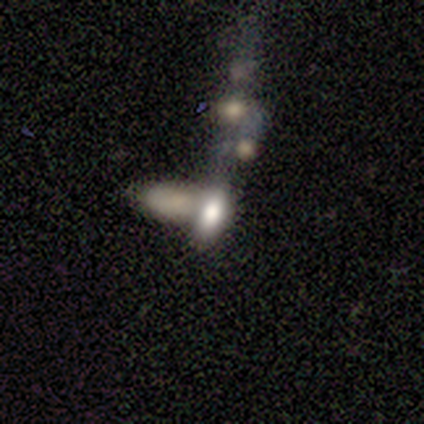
Volunteers were most divided on "smooth or featured": star or artifact: 60%, smooth: 40%, featured or disk: 0%.